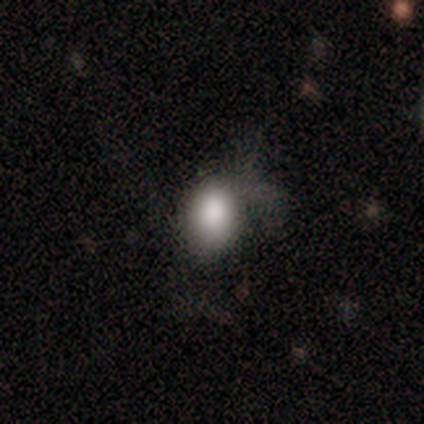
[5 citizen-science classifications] A smooth galaxy with no disk features (80%) that is in between round and cigar-shaped (75%).

Vote fractions:
- Smooth or featured? smooth: 80% / star or artifact: 20% / featured or disk: 0%
- How rounded? in between: 75% / round: 25% / cigar-shaped: 0%
- Merging? none: 50% (tied) / major disturbance: 50% (tied) / minor disturbance: 0% / merger: 0%